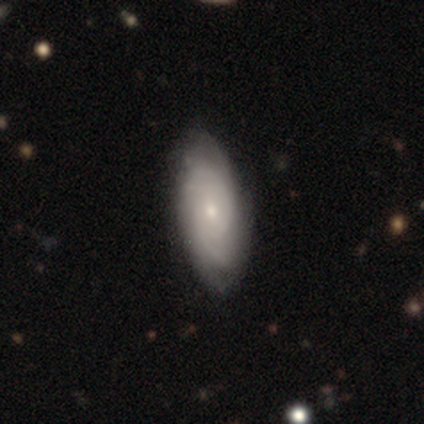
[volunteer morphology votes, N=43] This appears to be a featured or disk galaxy (79%) with no bar (79%), tight (68%) spiral arms (91%) and a small central bulge (59%). Merging: none (80%).